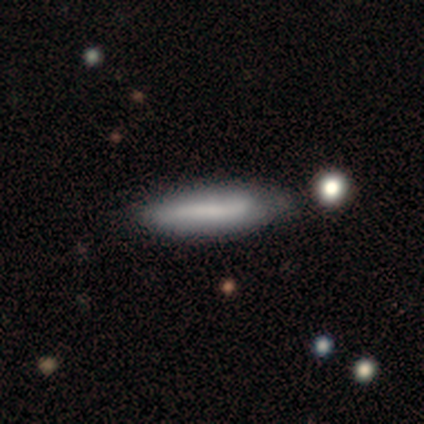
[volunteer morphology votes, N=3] smooth 100%, featured or disk 0%, star or artifact 0%. Down the decision tree: how rounded — cigar-shaped (67%); merging — none (67%).